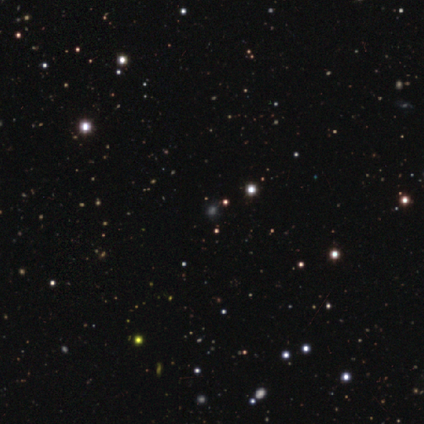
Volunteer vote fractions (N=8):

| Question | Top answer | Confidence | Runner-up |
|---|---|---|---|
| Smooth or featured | star or artifact | 75% | smooth (25%) |